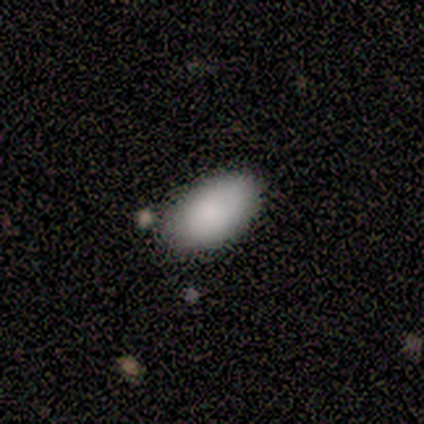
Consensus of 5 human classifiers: Morphology: type=smooth (100%); roundness=in between (100%); merging=none (60%).